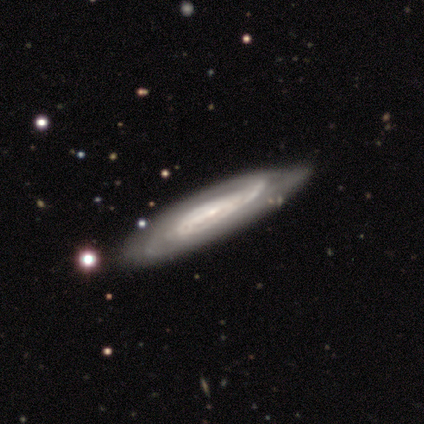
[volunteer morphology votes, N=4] This appears to be a featured or disk galaxy (100%) with no bar (75%), tight (50%, tied with medium) spiral arms (100%) and a small central bulge (50%). Merging: none (75%).